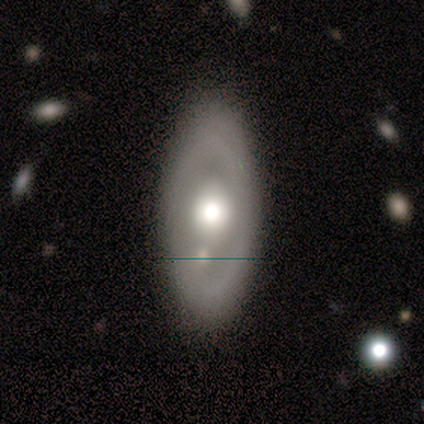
Overall: featured or disk (68%; smooth 30%). Edge-on disk: no (96%). Bar: no (88%). Spiral arms: no (77%). Bulge size: moderate (58%; large 35%). Merging: none (67%).